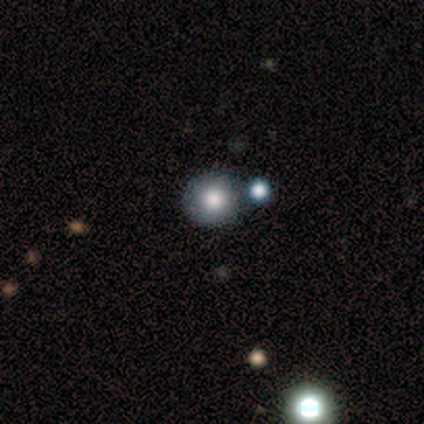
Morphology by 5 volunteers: Volunteers were most divided on "smooth or featured": smooth: 60%, star or artifact: 40%, featured or disk: 0%. More confident: how rounded — round (100%); merging — none (100%).